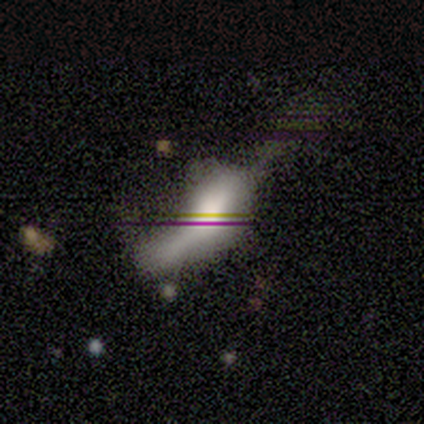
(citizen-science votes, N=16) A smooth galaxy with no disk features (50%) that is in between round and cigar-shaped (50%, tied with cigar-shaped). Merging: major disturbance (64%).